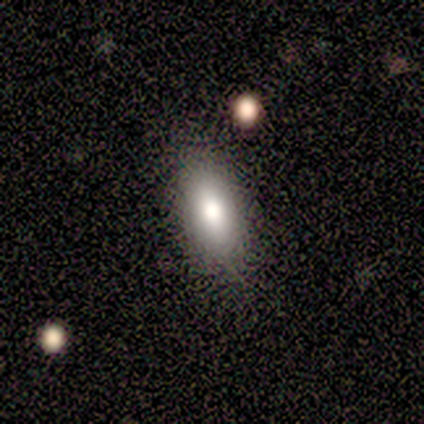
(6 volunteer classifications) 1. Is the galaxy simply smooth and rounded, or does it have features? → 83% smooth, 17% featured or disk, 0% star or artifact.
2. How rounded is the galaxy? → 60% in between, 40% cigar-shaped, 0% round.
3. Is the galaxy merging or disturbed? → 100% none, 0% minor disturbance, 0% major disturbance, 0% merger.